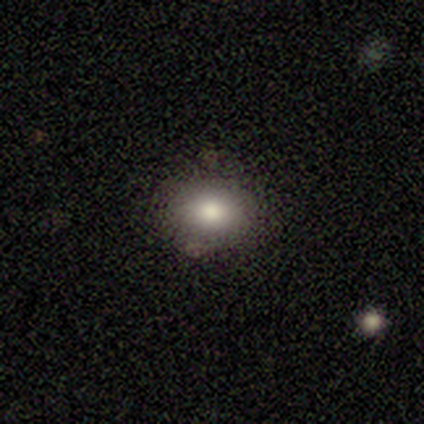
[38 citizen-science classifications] Q: Smooth or featured?
A: smooth (82%); runner-up: star or artifact (18%)
Q: How rounded?
A: in between (65%); runner-up: round (35%)
Q: Merging?
A: none (84%); runner-up: minor disturbance (10%)